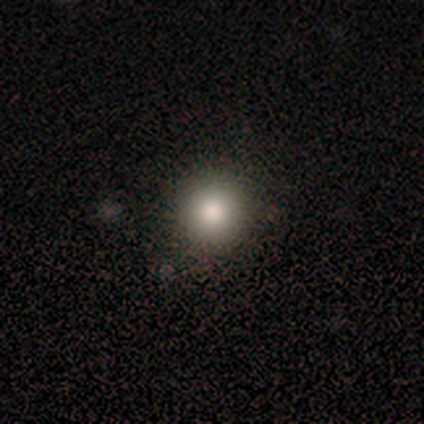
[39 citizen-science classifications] A smooth galaxy with no disk features (82%) that is round (97%). Merging: none (97%).